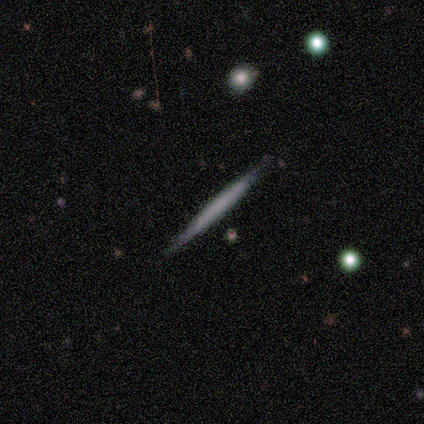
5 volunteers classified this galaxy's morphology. Smooth or featured?
  - smooth: 60% *
  - featured or disk: 40%
  - star or artifact: 0%
How rounded?
  - cigar-shaped: 100% *
  - round: 0%
  - in between: 0%
Merging?
  - none: 80% *
  - minor disturbance: 20%
  - major disturbance: 0%
  - merger: 0%